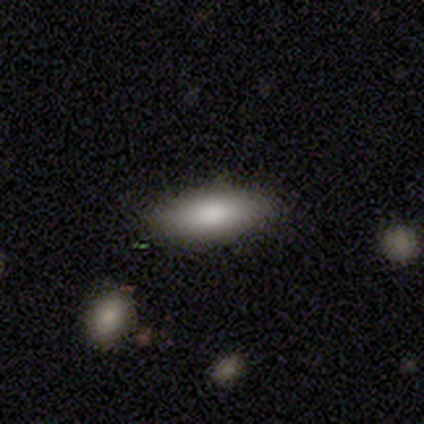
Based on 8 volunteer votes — This is clearly a smooth galaxy (100%). How rounded: likely in between (75%). Merging: clearly none (88%).